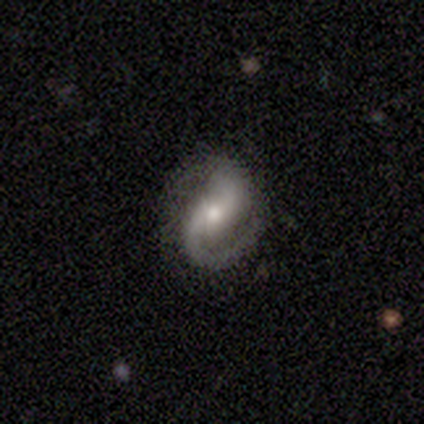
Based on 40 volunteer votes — Morphology: type=featured or disk (95%); edge-on=no (92%); bar=no (43%); spiral arms=yes (94%); winding=medium (42%); arm count=2 (88%); bulge=small (51%); merging=none (77%).